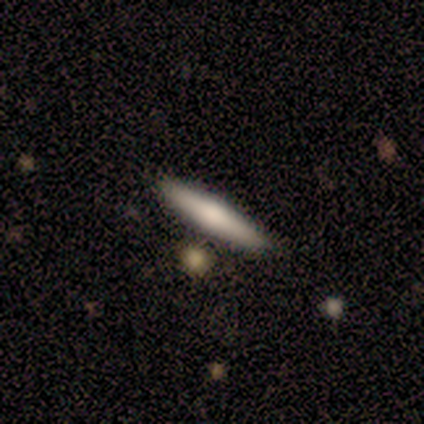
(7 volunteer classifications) smooth-or-featured: smooth: 86% | featured or disk: 14% | star or artifact: 0%
  how-rounded: cigar-shaped: 100% | round: 0% | in between: 0%
  merging: none: 71% | minor disturbance: 14% | merger: 14% | major disturbance: 0%